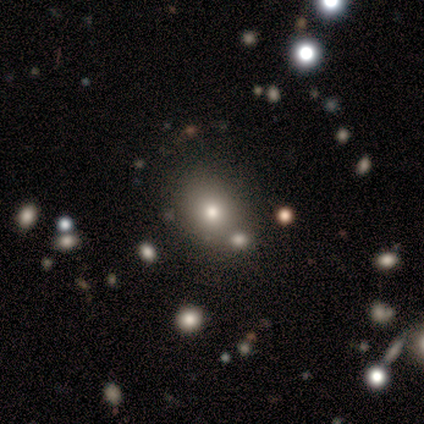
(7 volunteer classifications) Smooth or featured? smooth (57%)
How rounded? round (75%)
Merging? none (80%)